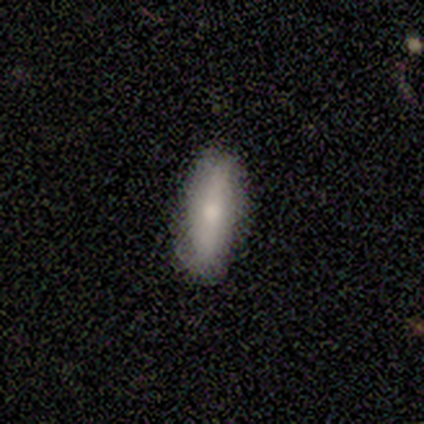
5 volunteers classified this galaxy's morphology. Q: Smooth or featured?
A: smooth (60%); runner-up: featured or disk (40%)
Q: How rounded?
A: in between (67%); runner-up: cigar-shaped (33%)
Q: Merging?
A: none (80%); runner-up: minor disturbance (20%)